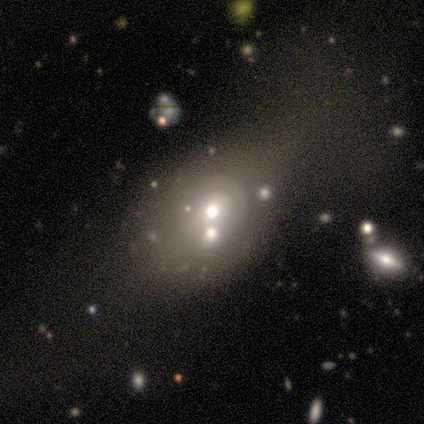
This is likely a featured or disk galaxy (60%). It is clearly not viewed edge-on (100%). Bar: likely no (67%). Spiral arm pattern: clearly no (100%). Central bulge: clearly moderate (100%). Merging: marginally major disturbance (40%, tied with merger).